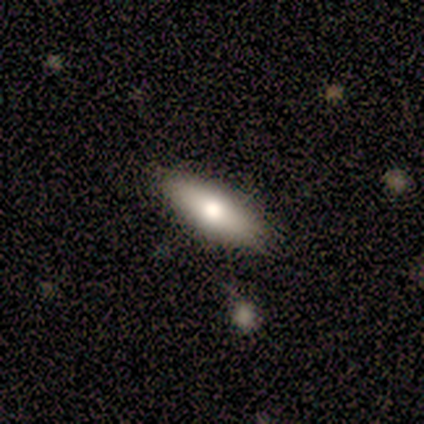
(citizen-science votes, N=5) Overall: smooth (80%). How rounded: in between (100%). Merging: none (80%).